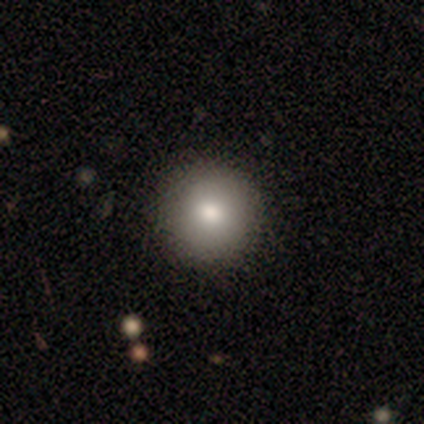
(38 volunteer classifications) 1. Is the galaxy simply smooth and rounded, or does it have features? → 97% smooth, 3% star or artifact, 0% featured or disk.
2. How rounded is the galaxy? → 97% round, 3% in between, 0% cigar-shaped.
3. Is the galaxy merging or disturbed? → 89% none, 11% minor disturbance, 0% major disturbance, 0% merger.